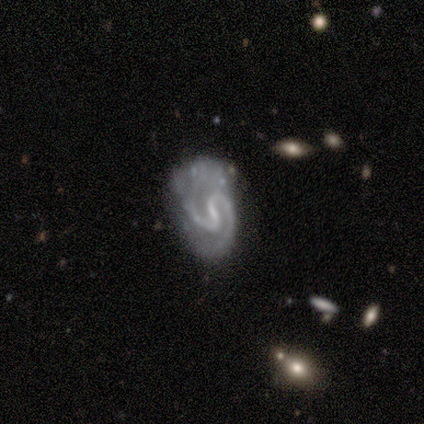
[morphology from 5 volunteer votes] Volunteers were most divided on "spiral winding": medium: 60%, tight: 40%, loose: 0%. More confident: smooth or featured — featured or disk (100%); edge-on disk — no (100%); spiral arms — yes (100%); bar — weak (80%); spiral arm count — 2 (80%); bulge size — none (60%); merging — none (60%).